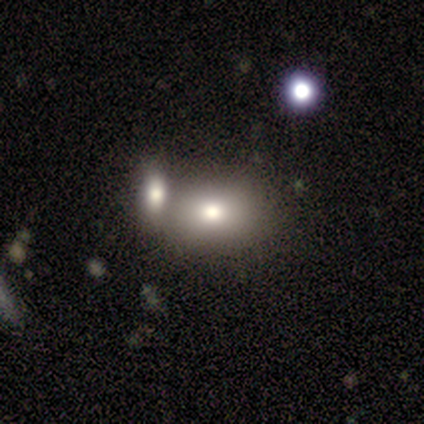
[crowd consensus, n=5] smooth_or_featured: smooth (p=0.80) [alt: featured or disk p=0.20]
how_rounded: in between (p=0.75) [alt: round p=0.25]
merging: none (p=0.60) [alt: minor disturbance p=0.40]